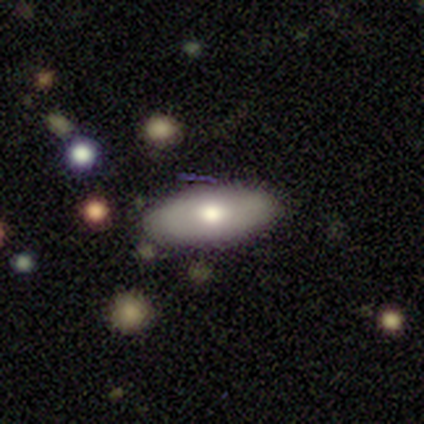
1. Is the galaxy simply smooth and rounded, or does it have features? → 60% smooth, 20% featured or disk, 20% star or artifact.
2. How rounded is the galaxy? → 67% in between, 33% cigar-shaped, 0% round.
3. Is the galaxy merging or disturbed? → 75% none, 25% minor disturbance, 0% major disturbance, 0% merger.